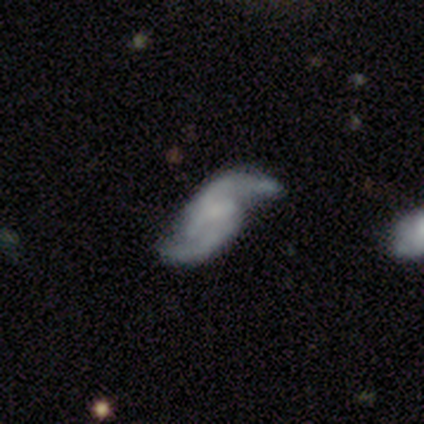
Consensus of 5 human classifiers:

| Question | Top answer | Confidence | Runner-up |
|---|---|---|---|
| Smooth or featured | featured or disk | 80% | star or artifact (20%) |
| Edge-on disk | no | 100% | — |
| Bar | no | 50% | strong (25%) |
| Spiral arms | yes | 100% | — |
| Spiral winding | loose | 100% | — |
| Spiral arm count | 2 | 100% | — |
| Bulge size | none | 75% | small (25%) |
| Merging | none | 100% | — |